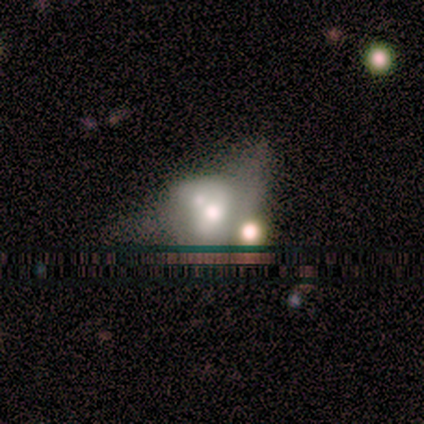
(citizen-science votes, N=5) Volunteers were most divided on "smooth or featured": featured or disk: 60%, smooth: 40%, star or artifact: 0%. Remaining: edge-on disk — no (100%); spiral arms — no (100%); bar — no (67%); bulge size — moderate (67%); merging — major disturbance (40%).